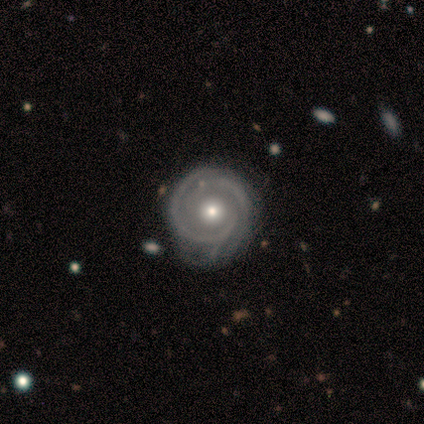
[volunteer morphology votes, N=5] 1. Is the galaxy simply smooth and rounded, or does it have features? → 80% featured or disk, 20% smooth, 0% star or artifact.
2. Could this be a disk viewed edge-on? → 100% no, 0% yes.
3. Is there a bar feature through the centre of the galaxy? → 100% no, 0% strong, 0% weak.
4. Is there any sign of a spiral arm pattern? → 100% yes, 0% no.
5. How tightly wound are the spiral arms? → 100% tight, 0% medium, 0% loose.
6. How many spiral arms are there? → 50% 2 (tied), 50% can't tell (tied), 0% 1, 0% 3, 0% 4, 0% more than 4.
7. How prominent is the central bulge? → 100% moderate, 0% dominant, 0% large, 0% small, 0% none.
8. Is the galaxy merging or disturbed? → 80% minor disturbance, 20% major disturbance, 0% none, 0% merger.